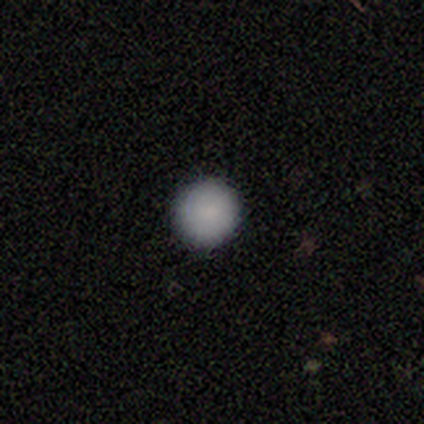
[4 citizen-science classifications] smooth 100%, featured or disk 0%, star or artifact 0%. Down the decision tree: how rounded — round (100%); merging — none (100%).